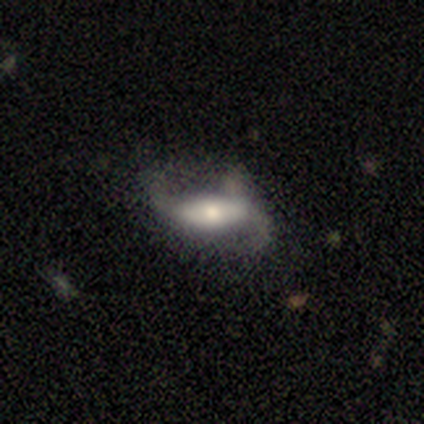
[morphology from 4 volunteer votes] Smooth or featured? 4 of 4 (100%) said featured or disk. Edge-on disk? 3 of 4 (75%) said no. Bar? 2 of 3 (67%) said no. Spiral arms? 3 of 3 (100%) said yes. Spiral winding? 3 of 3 (100%) said loose. Spiral arm count? 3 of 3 (100%) said 2. Bulge size? 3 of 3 (100%) said moderate. Merging? 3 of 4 (75%) said none.